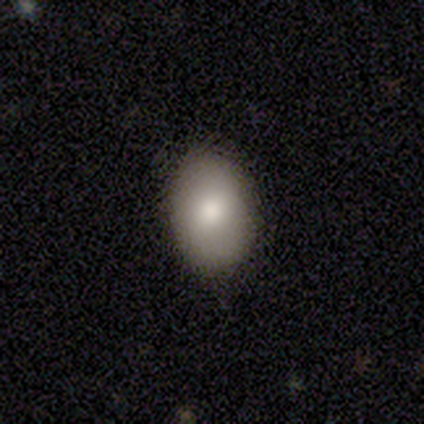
Smooth or featured? smooth (75%)
How rounded? in between (100%)
Merging? none (75%)